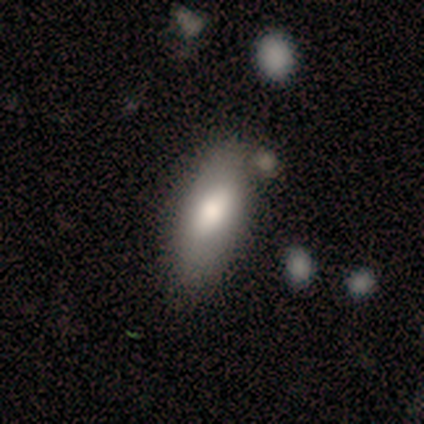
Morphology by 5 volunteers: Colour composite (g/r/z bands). It shows a smooth galaxy with no disk features (100%) that is in between round and cigar-shaped (100%). Merging: none (80%).